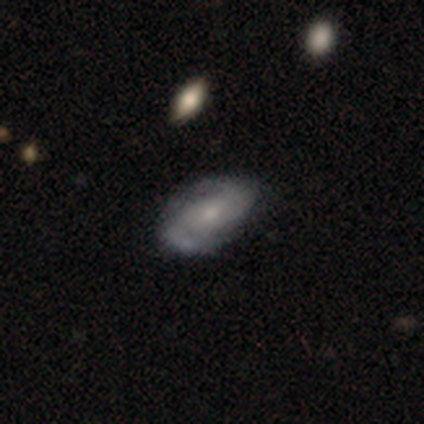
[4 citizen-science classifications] Smooth or featured? 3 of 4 (75%) said featured or disk. Edge-on disk? 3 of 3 (100%) said no. Bar? 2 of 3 (67%) said weak. Spiral arms? 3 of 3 (100%) said yes. Spiral winding? 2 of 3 (67%) said medium. Spiral arm count? 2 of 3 (67%) said 2. Bulge size? 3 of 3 (100%) said small. Merging? 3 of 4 (75%) said none.